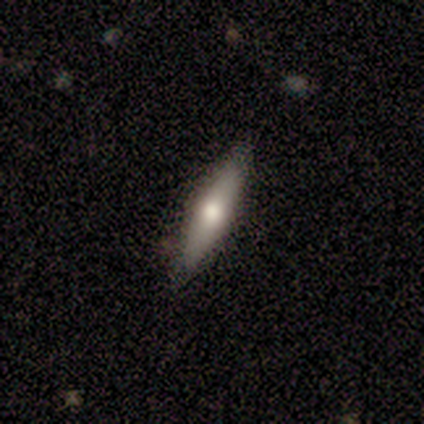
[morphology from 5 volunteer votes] A featured or disk galaxy (60%) viewed edge-on (100%) with a rounded central bulge (100%).

Vote fractions:
- Smooth or featured? featured or disk: 60% / smooth: 40% / star or artifact: 0%
- Edge-on disk? yes: 100% / no: 0%
- Edge-on bulge? rounded: 100% / boxy: 0% / none: 0%
- Merging? none: 100% / minor disturbance: 0% / major disturbance: 0% / merger: 0%